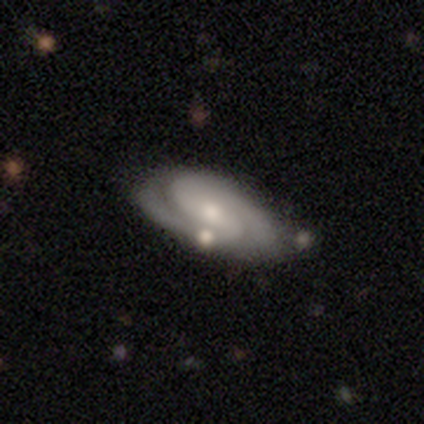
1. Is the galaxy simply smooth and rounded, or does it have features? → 75% featured or disk, 20% smooth, 5% star or artifact.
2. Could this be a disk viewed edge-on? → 97% no, 3% yes.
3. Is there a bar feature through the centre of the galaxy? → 48% no, 38% weak, 14% strong.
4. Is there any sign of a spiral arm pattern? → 93% yes, 7% no.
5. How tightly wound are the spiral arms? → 70% tight, 22% medium, 7% loose.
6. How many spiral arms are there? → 81% 2, 11% can't tell, 4% 1, 4% 3, 0% 4, 0% more than 4.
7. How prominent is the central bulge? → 45% moderate, 41% small, 14% none, 0% dominant, 0% large.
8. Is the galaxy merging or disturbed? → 71% none, 16% minor disturbance, 8% merger, 5% major disturbance.